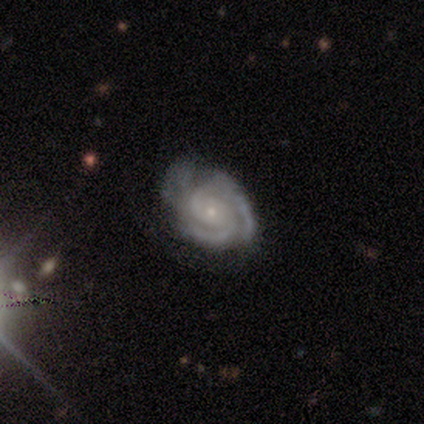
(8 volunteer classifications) Smooth or featured?
  - featured or disk: 100% *
  - smooth: 0%
  - star or artifact: 0%
Edge-on disk?
  - no: 100% *
  - yes: 0%
Bar?
  - no: 88% *
  - strong: 12%
  - weak: 0%
Spiral arms?
  - yes: 100% *
  - no: 0%
Spiral winding?
  - tight: 88% *
  - medium: 12%
  - loose: 0%
Spiral arm count?
  - 2: 62% *
  - 3: 38%
  - 1: 0%
  - 4: 0%
  - more than 4: 0%
  - can't tell: 0%
Bulge size?
  - small: 75% *
  - moderate: 25%
  - dominant: 0%
  - large: 0%
  - none: 0%
Merging?
  - none: 62% *
  - minor disturbance: 38%
  - major disturbance: 0%
  - merger: 0%